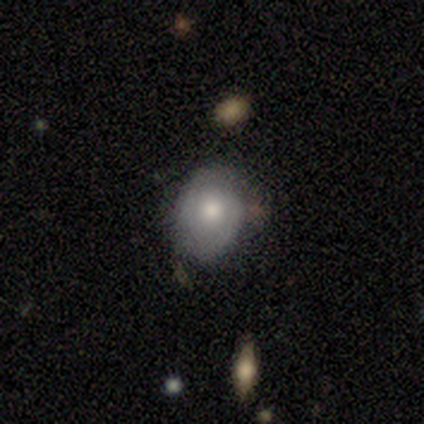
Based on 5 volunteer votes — smooth_or_featured: smooth (p=0.60) [alt: featured or disk p=0.40]
how_rounded: in between (p=0.67) [alt: round p=0.33]
merging: none (p=0.80) [alt: minor disturbance p=0.20]